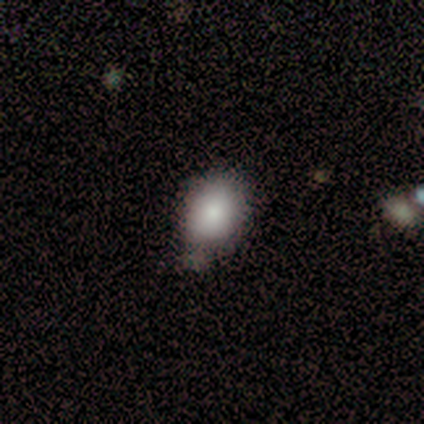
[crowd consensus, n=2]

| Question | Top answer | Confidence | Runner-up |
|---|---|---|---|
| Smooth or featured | smooth | 100% | — |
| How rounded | round | 50% | tied: in between (50%) |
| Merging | minor disturbance | 50% | tied: merger (50%) |